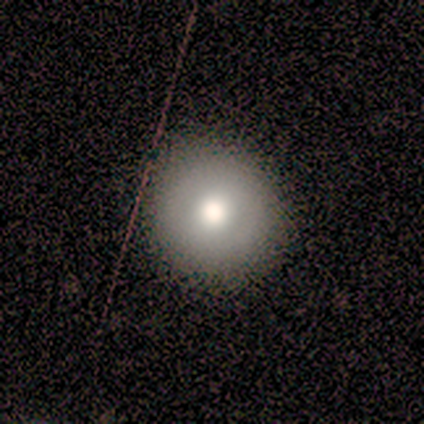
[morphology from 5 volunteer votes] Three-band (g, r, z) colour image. It shows a smooth galaxy with no disk features (100%) that is round (100%). Merging: none (100%).